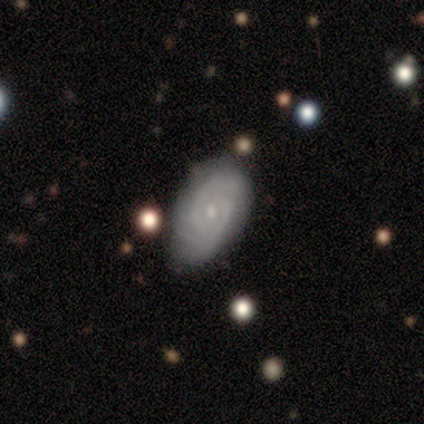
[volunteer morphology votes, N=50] This appears to be a featured or disk galaxy (88%) with no bar (76%), 2 (84%) tight (71%) spiral arms (90%) and a small central bulge (60%). Merging: none (72%).